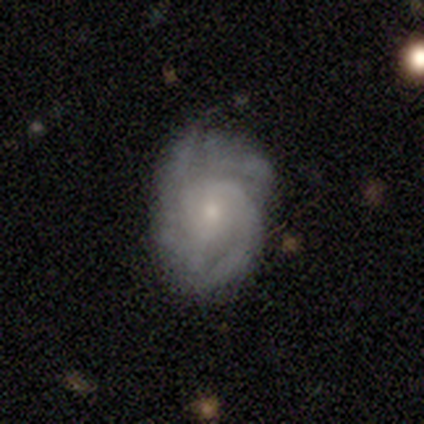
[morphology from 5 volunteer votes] featured or disk 80%, smooth 20%, star or artifact 0%. Down the decision tree: edge-on disk — no (100%); bar — weak (50%, tied with no); spiral arms — yes (100%); spiral arm count — 2 (50%); spiral winding — tight (50%, tied with medium); bulge size — small (75%); merging — none (80%).